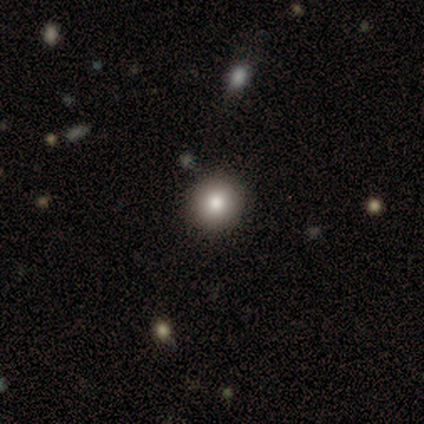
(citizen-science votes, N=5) A smooth galaxy with no disk features (80%) that is round (100%). Merging: none (75%).